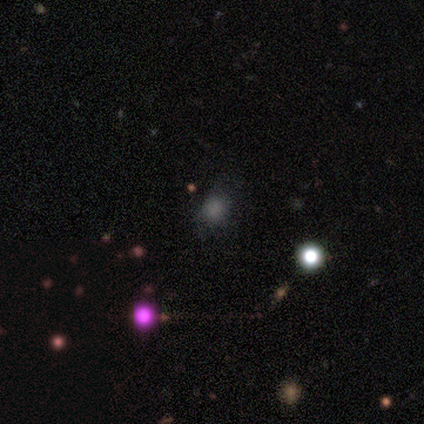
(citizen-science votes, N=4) Smooth or featured? 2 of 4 (50%) said star or artifact.